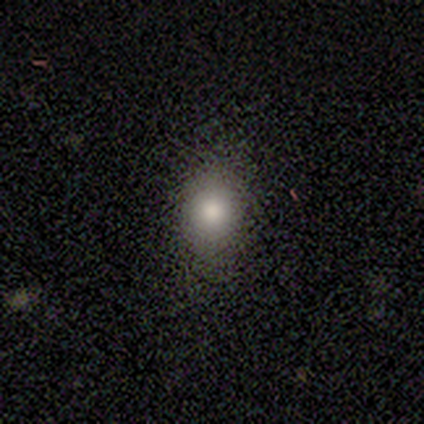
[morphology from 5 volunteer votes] A smooth galaxy with no disk features (100%) that is in between round and cigar-shaped (100%).

Vote fractions:
- Smooth or featured? smooth: 100% / featured or disk: 0% / star or artifact: 0%
- How rounded? in between: 100% / round: 0% / cigar-shaped: 0%
- Merging? none: 100% / minor disturbance: 0% / major disturbance: 0% / merger: 0%